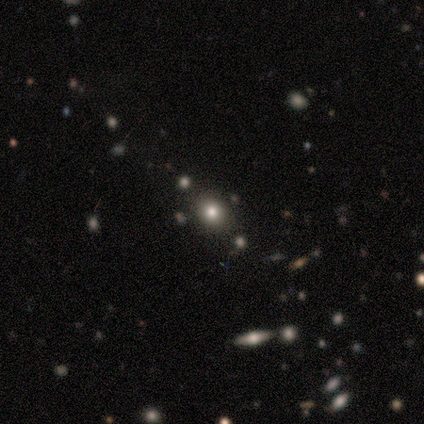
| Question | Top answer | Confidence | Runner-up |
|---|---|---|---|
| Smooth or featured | smooth | 60% | featured or disk (20%) |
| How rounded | round | 100% | — |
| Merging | none | 100% | — |